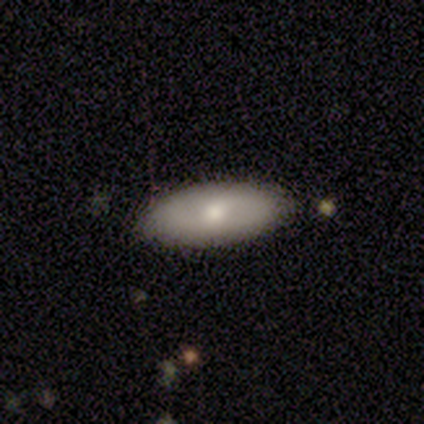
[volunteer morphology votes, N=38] A smooth galaxy with no disk features (68%) that is in between round and cigar-shaped (73%).

Vote fractions:
- Smooth or featured? smooth: 68% / featured or disk: 26% / star or artifact: 5%
- How rounded? in between: 73% / cigar-shaped: 23% / round: 4%
- Merging? none: 92% / minor disturbance: 6% / major disturbance: 3% / merger: 0%